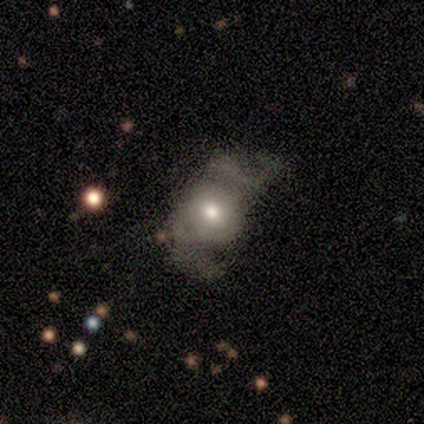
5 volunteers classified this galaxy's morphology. A featured or disk galaxy (60%) with no bar (100%), 2 (100%) loose (100%) spiral arms (67%) and a moderate central bulge (67%). Merging: major disturbance (60%).